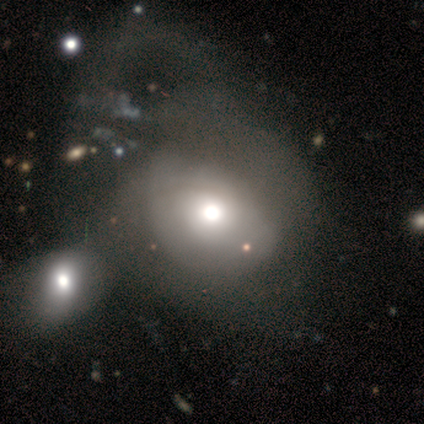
Overall: smooth (60%; featured or disk 40%). How rounded: in between (67%; round 33%). Merging: minor disturbance (40%, tied with merger).